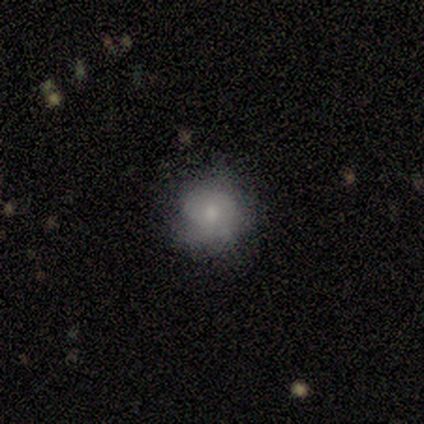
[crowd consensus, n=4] Overall: smooth (50%, tied with featured or disk). How rounded: in between (100%). Merging: none (75%).